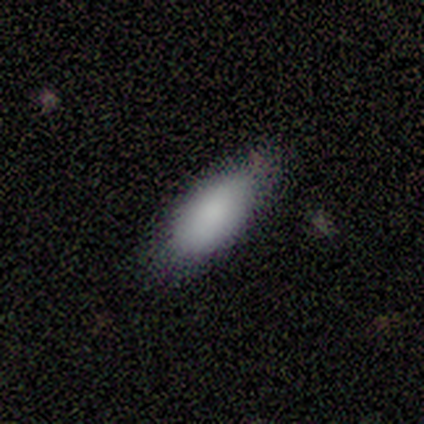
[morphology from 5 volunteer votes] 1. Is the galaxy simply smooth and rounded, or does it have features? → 100% smooth, 0% featured or disk, 0% star or artifact.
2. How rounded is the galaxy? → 100% in between, 0% round, 0% cigar-shaped.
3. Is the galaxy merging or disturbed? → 60% none, 40% minor disturbance, 0% major disturbance, 0% merger.